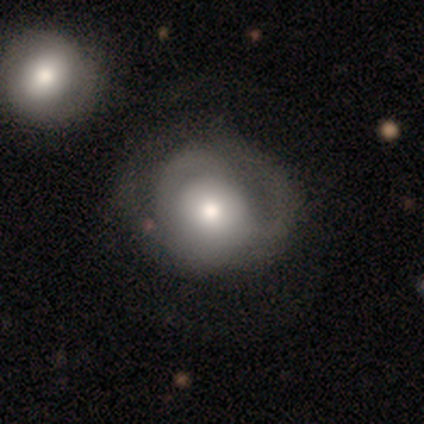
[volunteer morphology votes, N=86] Volunteers were most divided on "smooth or featured": featured or disk: 49%, smooth: 45%, star or artifact: 6%. Remaining: edge-on disk — no (98%); bar — no (83%); bulge size — moderate (66%); spiral arms — yes (56%); spiral winding — tight (52%); spiral arm count — can't tell (48%); merging — none (46%).